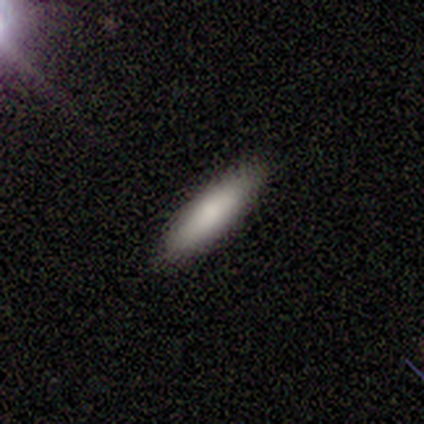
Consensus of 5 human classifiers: This appears to be a smooth galaxy with no disk features (100%) that is in between round and cigar-shaped (60%). Merging: none (100%).